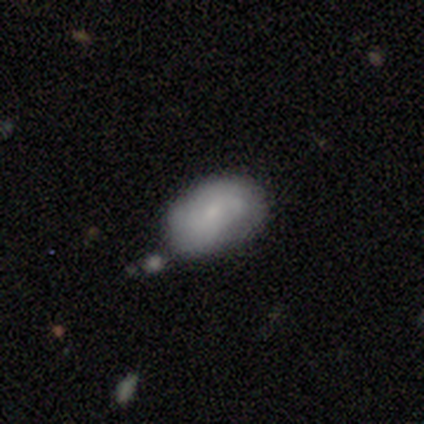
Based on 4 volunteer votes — Overall: featured or disk (75%). Edge-on disk: no (100%). Bar: no (67%; weak 33%). Spiral arms: yes (67%; no 33%). Spiral arm count: 2 (50%, tied with can't tell). Spiral winding: tight (50%, tied with medium). Bulge size: small (100%). Merging: none (50%; minor disturbance 25%).